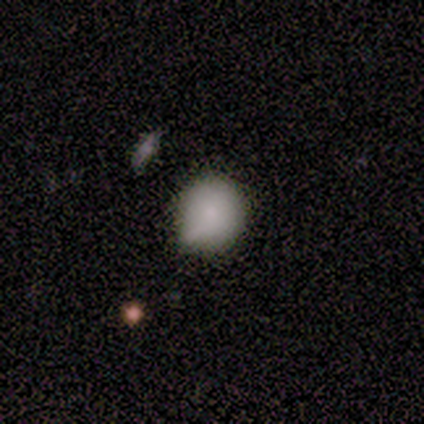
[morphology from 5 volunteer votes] Smooth or featured? 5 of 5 (100%) said smooth. How rounded? 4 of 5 (80%) said round. Merging? 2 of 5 (40%, tied with minor disturbance) said none.